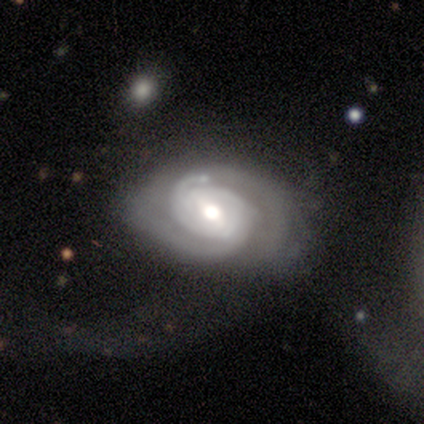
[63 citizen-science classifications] This is clearly a featured or disk galaxy (86%). It is clearly not viewed edge-on (98%). Bar: possibly weak (53%). Spiral arm pattern: clearly yes (96%). Spiral arm count: likely 2 (65%). Spiral winding: likely tight (65%). Central bulge: likely moderate (64%). Merging: marginally none (40%, tied with major disturbance).